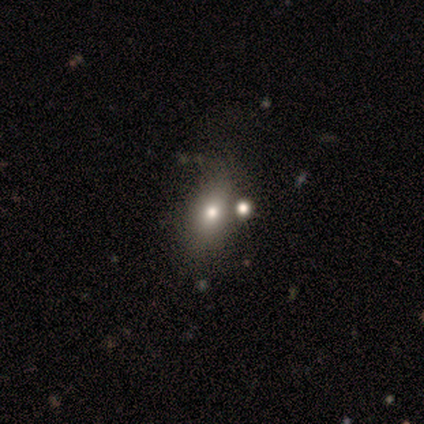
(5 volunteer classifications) This is clearly a smooth galaxy (80%). How rounded: possibly in between (50%). Merging: marginally none (40%, tied with minor disturbance).